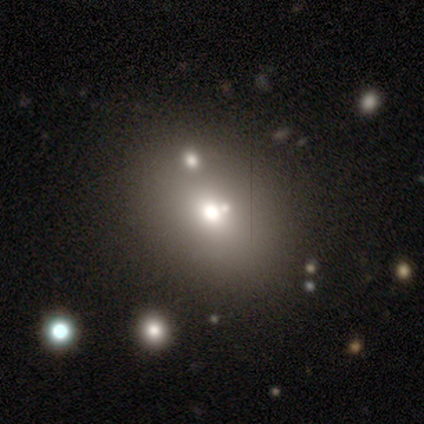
Volunteers were most divided on "how rounded": in between: 52%, round: 48%, cigar-shaped: 0%. More confident: smooth or featured — smooth (68%); merging — none (65%).